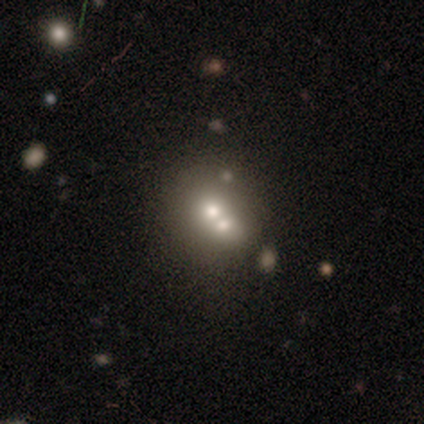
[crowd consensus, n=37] Q: Smooth or featured?
A: smooth (62%); runner-up: featured or disk (19%)
Q: How rounded?
A: round (70%); runner-up: in between (30%)
Q: Merging?
A: merger (70%); runner-up: none (27%)